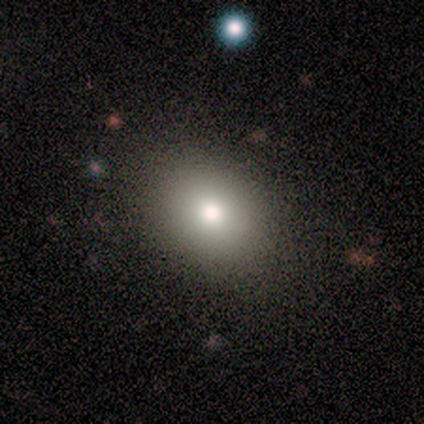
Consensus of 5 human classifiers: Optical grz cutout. It shows a smooth galaxy with no disk features (100%) that is round (100%). Merging: none (100%).